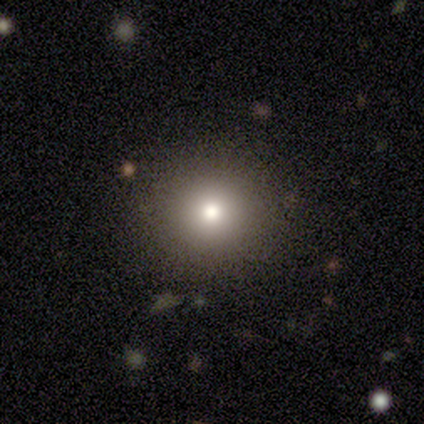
featured or disk 40% (tied), star or artifact 40% (tied), smooth 20%. Down the decision tree: edge-on disk — no (100%); bar — no (100%); spiral arms — no (100%); bulge size — moderate (50%, tied with small); merging — none (100%).